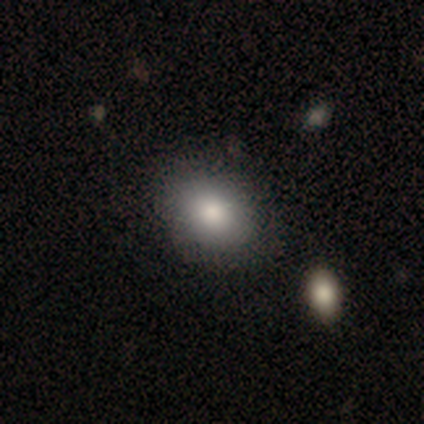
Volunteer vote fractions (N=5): This appears to be a smooth galaxy with no disk features (80%) that is in between round and cigar-shaped (100%). Merging: none (75%).